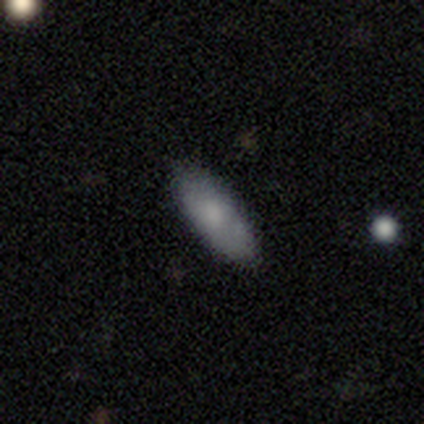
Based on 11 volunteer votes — Volunteers were most divided on "how rounded": in between: 75%, cigar-shaped: 25%, round: 0%. More confident: merging — none (90%); smooth or featured — smooth (73%).